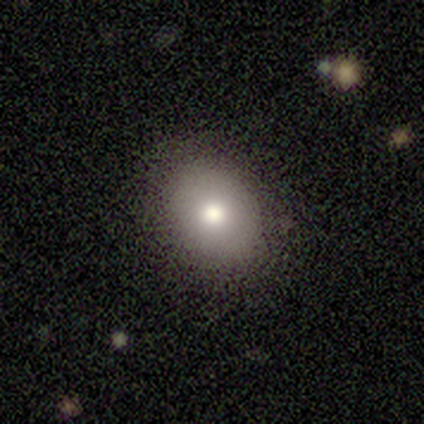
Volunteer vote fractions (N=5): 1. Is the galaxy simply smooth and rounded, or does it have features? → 60% smooth, 40% featured or disk, 0% star or artifact.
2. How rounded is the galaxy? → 67% round, 33% in between, 0% cigar-shaped.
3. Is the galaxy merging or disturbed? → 100% none, 0% minor disturbance, 0% major disturbance, 0% merger.